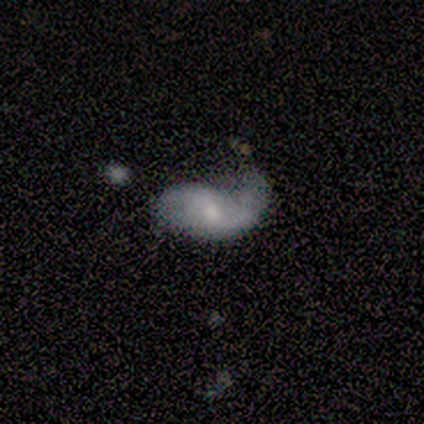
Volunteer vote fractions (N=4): This is likely a featured or disk galaxy (75%). It is clearly not viewed edge-on (100%). Bar: likely weak (67%). Spiral arm pattern: clearly yes (100%). Spiral arm count: clearly 2 (100%). Spiral winding: clearly loose (100%). Central bulge: marginally large (33%, tied with small and none). Merging: possibly minor disturbance (50%).